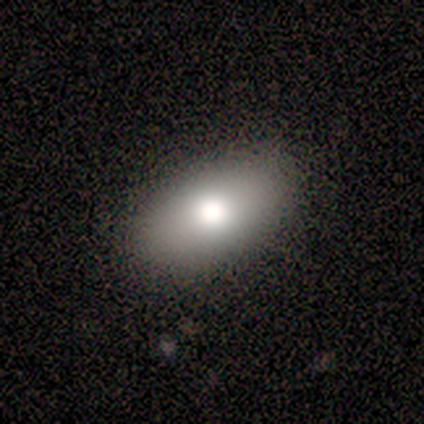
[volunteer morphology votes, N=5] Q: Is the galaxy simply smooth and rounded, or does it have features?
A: smooth — 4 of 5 (80%).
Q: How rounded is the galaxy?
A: in between — 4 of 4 (100%).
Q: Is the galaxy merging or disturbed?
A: none — 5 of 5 (100%).